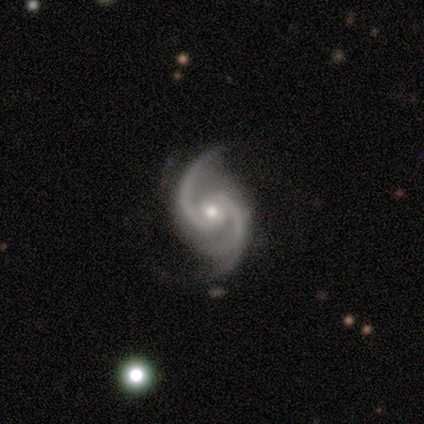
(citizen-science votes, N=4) This appears to be a featured or disk galaxy (100%) with a weak bar (50%, tied with no), 2 (100%) medium (75%) spiral arms (100%) and a moderate central bulge (50%, tied with small). Merging: none (75%).